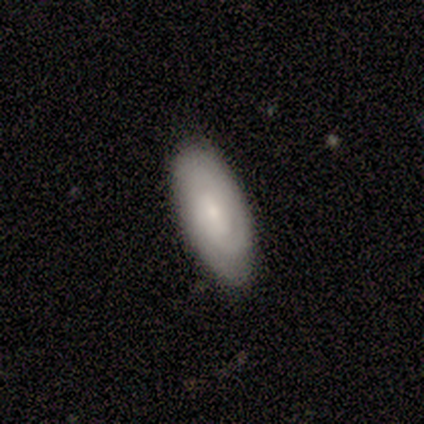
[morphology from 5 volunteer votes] smooth_or_featured: smooth (p=0.80) [alt: featured or disk p=0.20]
how_rounded: in between (p=0.50) [alt: round p=0.25]
merging: none (p=1.00)